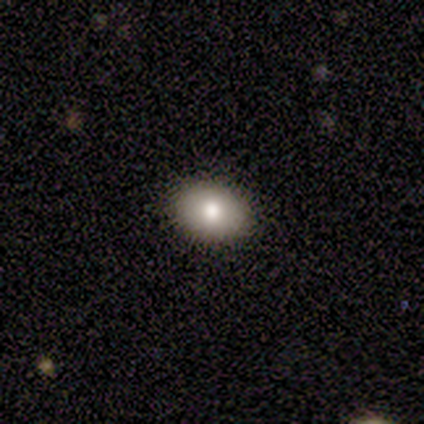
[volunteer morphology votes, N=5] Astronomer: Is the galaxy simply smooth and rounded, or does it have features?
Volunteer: smooth — 60% (runner-up: star or artifact, 40%).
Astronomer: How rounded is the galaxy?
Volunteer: round — 67%.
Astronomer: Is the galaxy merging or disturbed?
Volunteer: none — 67%.